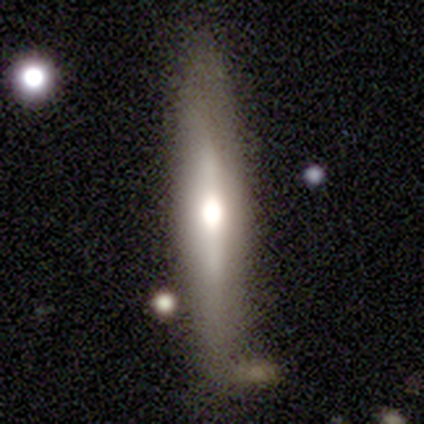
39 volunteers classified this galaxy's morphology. Smooth or featured?
  - featured or disk: 62% *
  - smooth: 38%
  - star or artifact: 0%
Edge-on disk?
  - yes: 88% *
  - no: 12%
Edge-on bulge?
  - rounded: 76% *
  - none: 14%
  - boxy: 10%
Merging?
  - none: 74% *
  - minor disturbance: 18%
  - merger: 5%
  - major disturbance: 3%